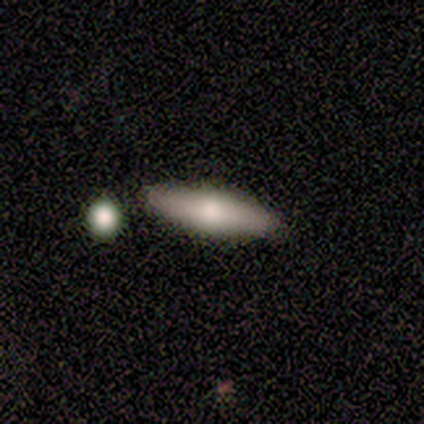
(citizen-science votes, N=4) Smooth or featured: smooth — 100%
How rounded: in between — 100%
Merging: none — 100%